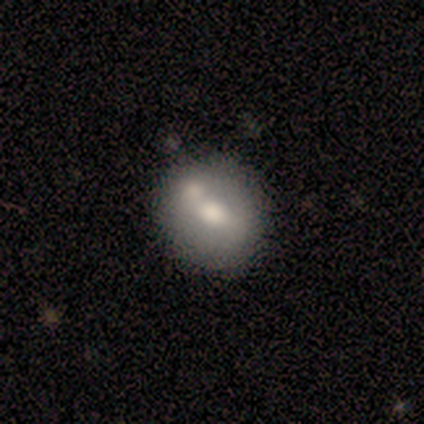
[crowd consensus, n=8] Overall: smooth (50%; featured or disk 38%). How rounded: round (100%). Merging: none (86%).